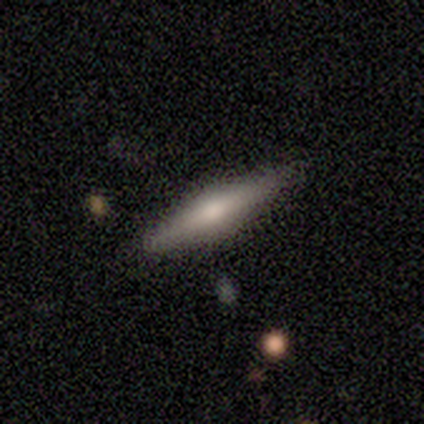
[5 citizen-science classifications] This is clearly a featured or disk galaxy (80%). It is clearly viewed edge-on (100%). Edge-on bulge: clearly rounded (100%). Merging: clearly none (100%).